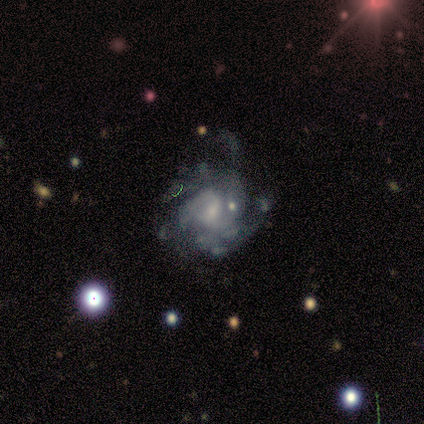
Q: Smooth or featured?
A: featured or disk (86%); runner-up: star or artifact (9%)
Q: Edge-on disk?
A: no (100%)
Q: Bar?
A: no (59%); runner-up: weak (38%)
Q: Spiral arms?
A: yes (78%); runner-up: no (22%)
Q: Spiral winding?
A: medium (52%); runner-up: tight (31%)
Q: Spiral arm count?
A: can't tell (45%); runner-up: 2 (17%)
Q: Bulge size?
A: small (51%); runner-up: moderate (32%)
Q: Merging?
A: major disturbance (38%); runner-up: none (28%)